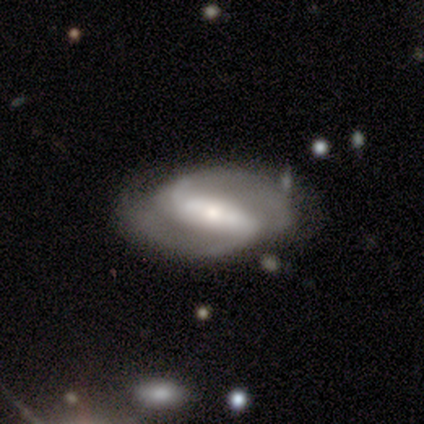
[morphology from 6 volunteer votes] Volunteers were most divided on "bulge size": moderate: 60%, large: 40%, dominant: 0%, small: 0%, none: 0%. More confident: edge-on disk — no (100%); spiral arm count — 2 (100%); smooth or featured — featured or disk (83%); bar — strong (80%); spiral arms — yes (80%); merging — none (60%); spiral winding — loose (50%).